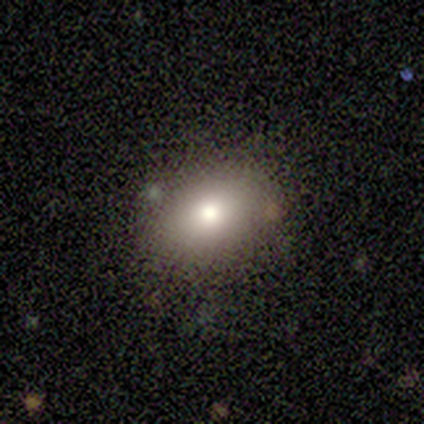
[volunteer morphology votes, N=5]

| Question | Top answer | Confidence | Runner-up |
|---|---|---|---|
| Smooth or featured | smooth | 100% | — |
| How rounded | in between | 60% | round (40%) |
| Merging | none | 80% | minor disturbance (20%) |